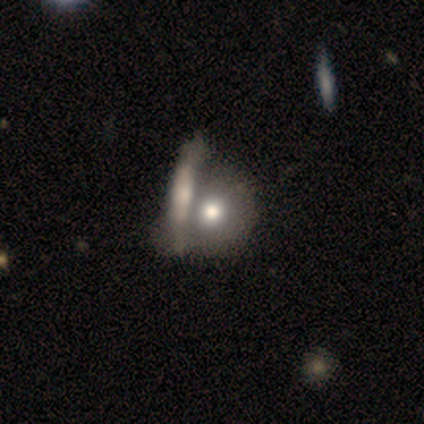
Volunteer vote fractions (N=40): A smooth galaxy with no disk features (68%) that is round (78%). Merging: merger (58%).